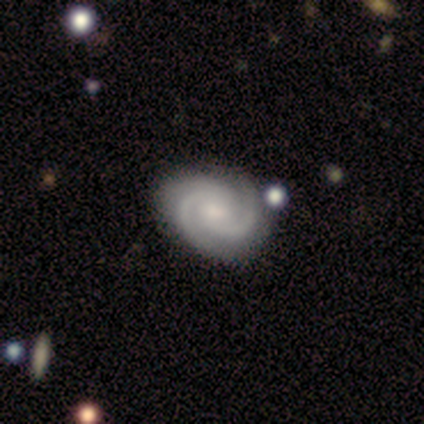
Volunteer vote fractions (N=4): featured or disk 100%, smooth 0%, star or artifact 0%. Down the decision tree: edge-on disk — no (100%); bar — weak (50%, tied with no); spiral arms — yes (100%); spiral arm count — 3 (50%); spiral winding — tight (100%); bulge size — none (50%); merging — none (100%).